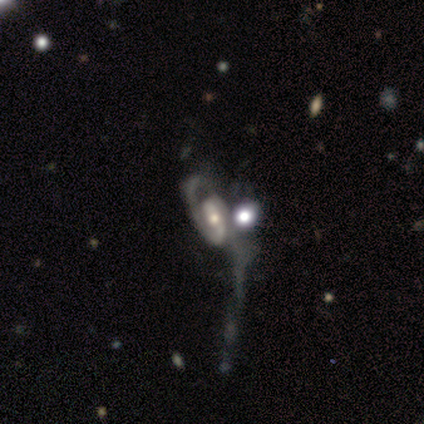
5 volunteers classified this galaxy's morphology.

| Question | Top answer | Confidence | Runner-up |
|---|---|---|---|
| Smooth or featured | featured or disk | 80% | star or artifact (20%) |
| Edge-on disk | no | 100% | — |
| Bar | no | 75% | strong (25%) |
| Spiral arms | yes | 50% | tied: no (50%) |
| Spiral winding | tight | 100% | — |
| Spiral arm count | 2 | 100% | — |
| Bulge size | small | 50% | large (25%) |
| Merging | major disturbance | 100% | — |